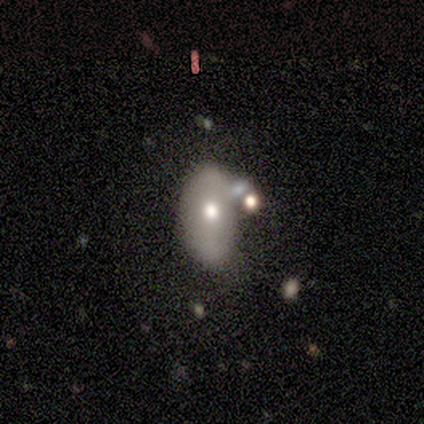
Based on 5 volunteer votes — smooth 80%, featured or disk 20%, star or artifact 0%. Down the decision tree: how rounded — in between (75%); merging — none (40%, tied with merger).